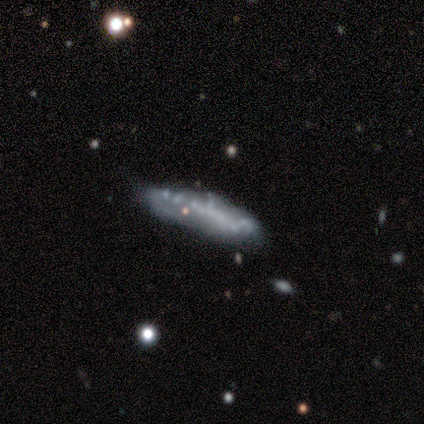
Smooth or featured: featured or disk — 60% (smooth — 20%)
Edge-on disk: yes — 67% (no — 33%)
Edge-on bulge: boxy — 50% (tied with none — 50%)
Merging: none — 75% (minor disturbance — 25%)